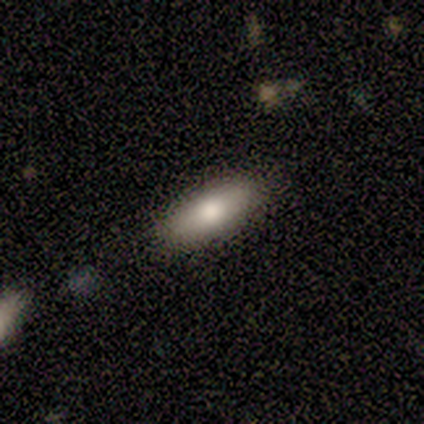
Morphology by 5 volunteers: smooth-or-featured: smooth: 100% | featured or disk: 0% | star or artifact: 0%
  how-rounded: cigar-shaped: 60% | in between: 40% | round: 0%
  merging: none: 100% | minor disturbance: 0% | major disturbance: 0% | merger: 0%